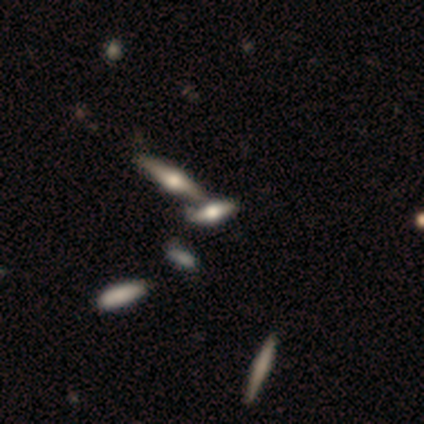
A featured or disk galaxy (50%) viewed edge-on (100%) with a rounded central bulge (100%).

Vote fractions:
- Smooth or featured? featured or disk: 50% / smooth: 29% / star or artifact: 21%
- Edge-on disk? yes: 100% / no: 0%
- Edge-on bulge? rounded: 100% / boxy: 0% / none: 0%
- Merging? none: 55% / minor disturbance: 27% / merger: 18% / major disturbance: 0%